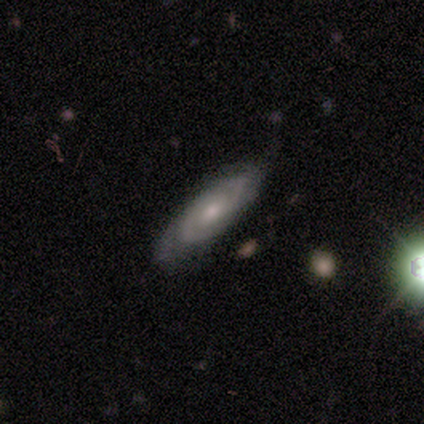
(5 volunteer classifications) Smooth or featured? 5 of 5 (100%) said featured or disk. Edge-on disk? 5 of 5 (100%) said no. Bar? 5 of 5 (100%) said no. Spiral arms? 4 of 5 (80%) said yes. Spiral winding? 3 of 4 (75%) said tight. Spiral arm count? 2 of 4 (50%) said 2. Bulge size? 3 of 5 (60%) said small. Merging? 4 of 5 (80%) said none.